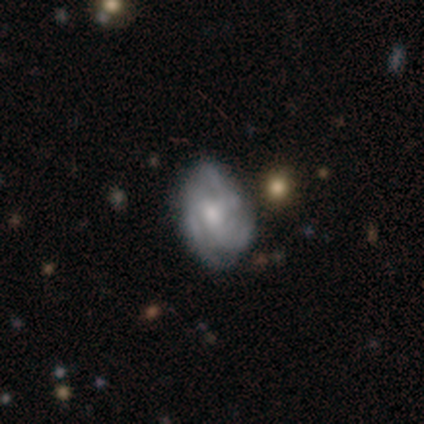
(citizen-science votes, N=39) A featured or disk galaxy (82%) with no bar (59%), 3 (74%) medium (59%) spiral arms (84%) and a moderate central bulge (59%).

Vote fractions:
- Smooth or featured? featured or disk: 82% / smooth: 15% / star or artifact: 3%
- Edge-on disk? no: 100% / yes: 0%
- Bar? no: 59% / weak: 31% / strong: 9%
- Spiral arms? yes: 84% / no: 16%
- Spiral winding? medium: 59% / tight: 33% / loose: 7%
- Spiral arm count? 3: 74% / 2: 19% / can't tell: 7% / 1: 0% / 4: 0% / more than 4: 0%
- Bulge size? moderate: 59% / small: 19% / large: 16% / none: 6% / dominant: 0%
- Merging? none: 47% / minor disturbance: 16% / merger: 5% / major disturbance: 3%